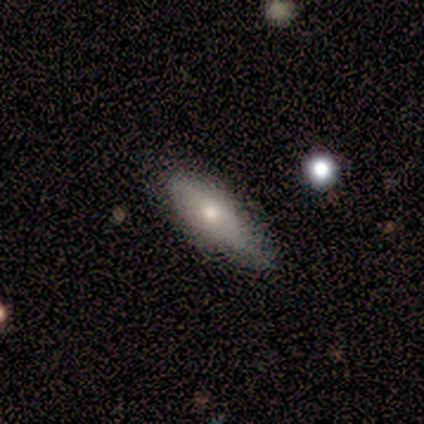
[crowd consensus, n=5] Smooth or featured: smooth — 80% (featured or disk — 20%)
How rounded: in between — 50% (tied with cigar-shaped — 50%)
Merging: none — 80% (minor disturbance — 20%)